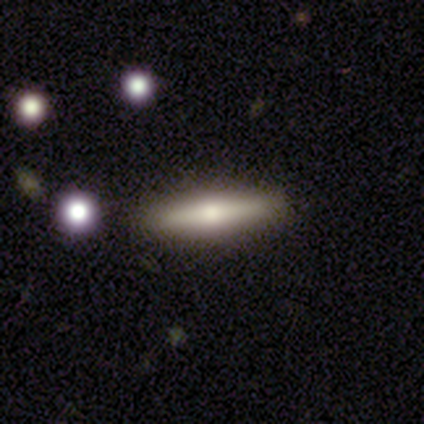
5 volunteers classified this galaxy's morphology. Smooth or featured?
  - smooth: 80% *
  - featured or disk: 20%
  - star or artifact: 0%
How rounded?
  - cigar-shaped: 100% *
  - round: 0%
  - in between: 0%
Merging?
  - none: 80% *
  - merger: 20%
  - minor disturbance: 0%
  - major disturbance: 0%